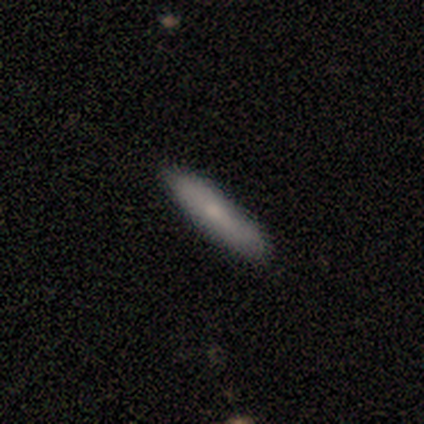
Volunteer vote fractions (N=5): smooth_or_featured: smooth (p=1.00)
how_rounded: cigar-shaped (p=0.80) [alt: in between p=0.20]
merging: none (p=1.00)